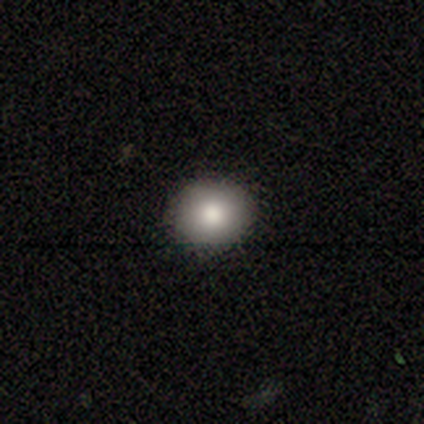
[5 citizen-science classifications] Smooth or featured: smooth — 100%
How rounded: in between — 60% (round — 40%)
Merging: none — 100%